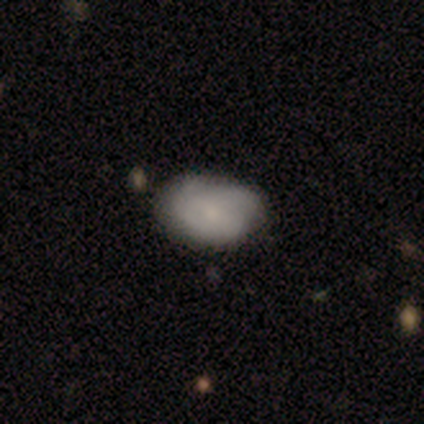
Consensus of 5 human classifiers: Smooth or featured? 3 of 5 (60%) said featured or disk. Edge-on disk? 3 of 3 (100%) said no. Bar? 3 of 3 (100%) said weak. Spiral arms? 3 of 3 (100%) said yes. Spiral winding? 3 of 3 (100%) said tight. Spiral arm count? 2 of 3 (67%) said 2. Bulge size? 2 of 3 (67%) said moderate. Merging? 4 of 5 (80%) said none.